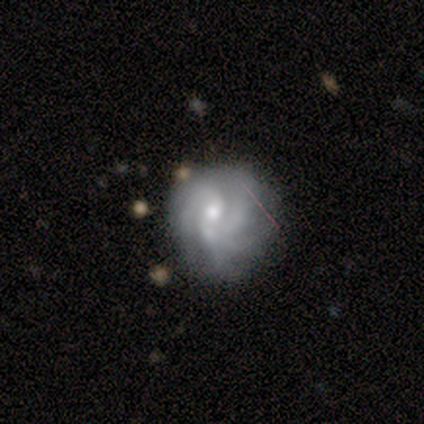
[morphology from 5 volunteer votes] Smooth or featured?
  - featured or disk: 60% *
  - smooth: 40%
  - star or artifact: 0%
Edge-on disk?
  - no: 100% *
  - yes: 0%
Bar?
  - no: 100% *
  - strong: 0%
  - weak: 0%
Spiral arms?
  - yes: 100% *
  - no: 0%
Spiral winding?
  - tight: 67% *
  - medium: 33%
  - loose: 0%
Spiral arm count?
  - 3: 33% * (tied)
  - 4: 33% * (tied)
  - can't tell: 33% * (tied)
  - 1: 0%
  - 2: 0%
  - more than 4: 0%
Bulge size?
  - small: 100% *
  - dominant: 0%
  - large: 0%
  - moderate: 0%
  - none: 0%
Merging?
  - major disturbance: 60% *
  - none: 20%
  - minor disturbance: 20%
  - merger: 0%